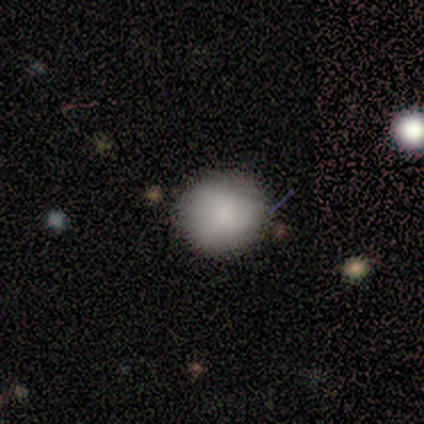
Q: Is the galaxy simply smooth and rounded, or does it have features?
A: smooth — 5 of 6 (83%).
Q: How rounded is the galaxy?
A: round — 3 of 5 (60%).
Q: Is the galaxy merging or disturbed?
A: none — 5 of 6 (83%).